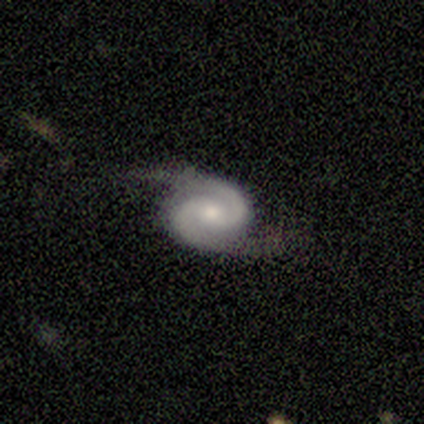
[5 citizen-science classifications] Smooth or featured? 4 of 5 (80%) said featured or disk. Edge-on disk? 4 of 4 (100%) said no. Bar? 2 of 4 (50%) said weak. Spiral arms? 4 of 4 (100%) said yes. Spiral winding? 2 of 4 (50%, tied with medium) said tight. Spiral arm count? 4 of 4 (100%) said 2. Bulge size? 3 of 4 (75%) said moderate. Merging? 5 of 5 (100%) said none.